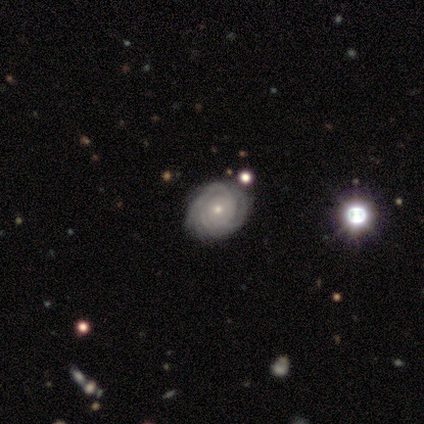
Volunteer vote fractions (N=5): Q: Smooth or featured?
A: featured or disk (80%); runner-up: smooth (20%)
Q: Edge-on disk?
A: no (100%)
Q: Bar?
A: no (100%)
Q: Spiral arms?
A: yes (100%)
Q: Spiral winding?
A: tight (100%)
Q: Spiral arm count?
A: 4 (50%); tied with: can't tell (50%)
Q: Bulge size?
A: moderate (50%); tied with: small (50%)
Q: Merging?
A: none (100%)